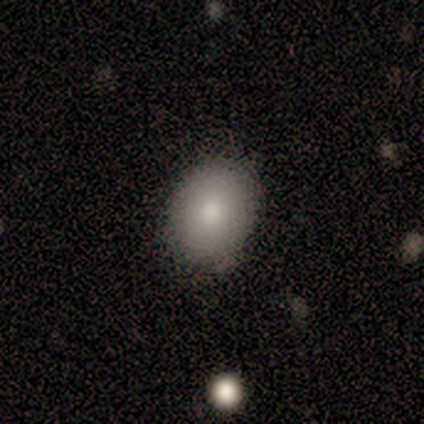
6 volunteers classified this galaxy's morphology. A smooth galaxy with no disk features (67%) that is round (100%). Merging: none (67%).